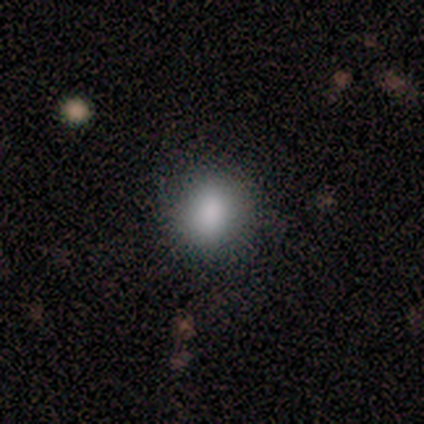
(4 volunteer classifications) Smooth or featured? smooth (75%)
How rounded? round (100%)
Merging? none (100%)